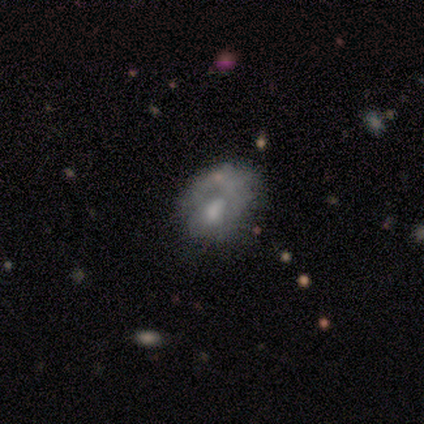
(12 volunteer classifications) Smooth or featured? 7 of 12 (58%) said featured or disk. Edge-on disk? 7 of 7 (100%) said no. Bar? 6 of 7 (86%) said no. Spiral arms? 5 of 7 (71%) said no. Bulge size? 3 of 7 (43%) said moderate. Merging? 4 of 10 (40%) said major disturbance.